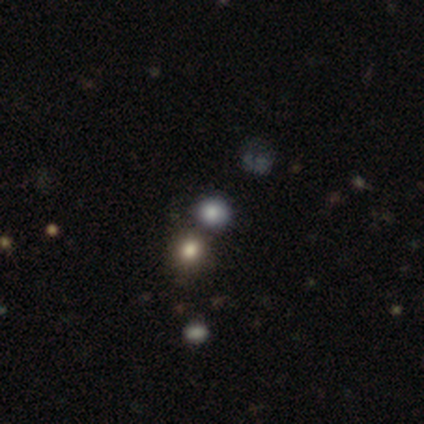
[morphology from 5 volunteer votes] smooth 60%, featured or disk 40%, star or artifact 0%. Down the decision tree: how rounded — round (100%); merging — merger (60%).